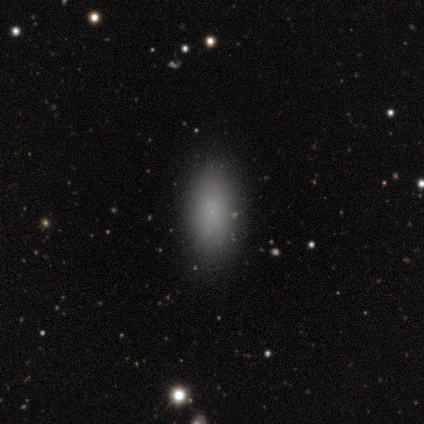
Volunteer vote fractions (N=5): Morphology: type=smooth (100%); roundness=in between (80%); merging=none (100%).